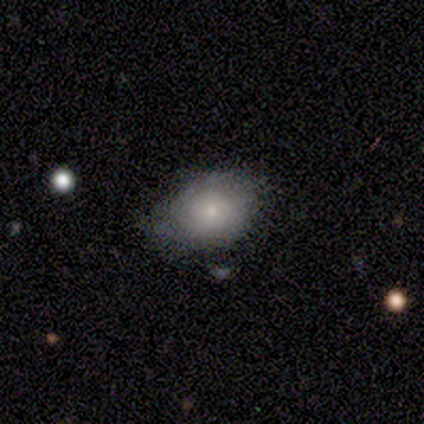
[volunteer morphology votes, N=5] Smooth or featured? smooth (60%)
How rounded? in between (67%)
Merging? none (80%)